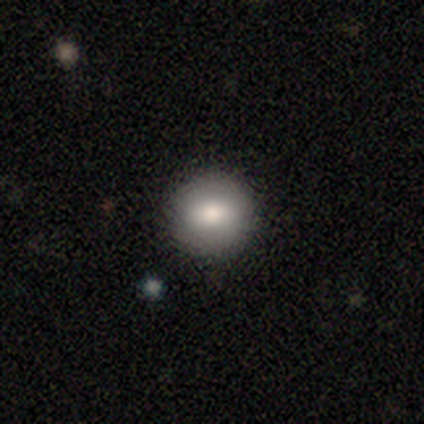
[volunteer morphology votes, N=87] A smooth galaxy with no disk features (86%) that is round (88%).

Vote fractions:
- Smooth or featured? smooth: 86% / star or artifact: 9% / featured or disk: 5%
- How rounded? round: 88% / in between: 11% / cigar-shaped: 1%
- Merging? none: 94% / minor disturbance: 5% / major disturbance: 1% / merger: 0%